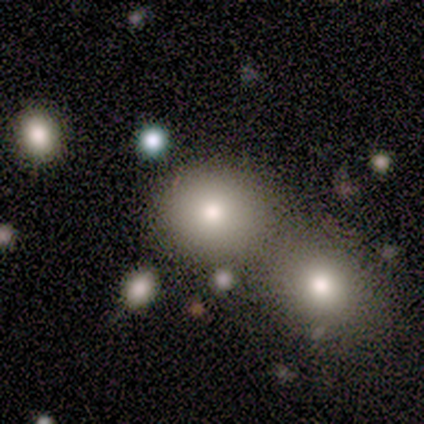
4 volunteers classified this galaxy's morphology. Overall: smooth (50%; featured or disk 25%). How rounded: round (100%). Merging: none (67%; merger 33%).